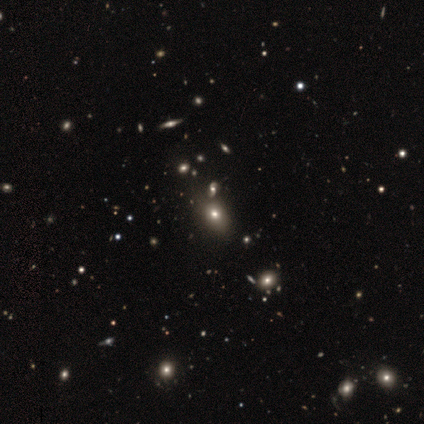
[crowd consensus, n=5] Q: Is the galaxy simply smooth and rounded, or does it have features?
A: smooth — 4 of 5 (80%).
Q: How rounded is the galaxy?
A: in between — 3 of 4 (75%).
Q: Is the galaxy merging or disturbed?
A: none — 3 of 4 (75%).